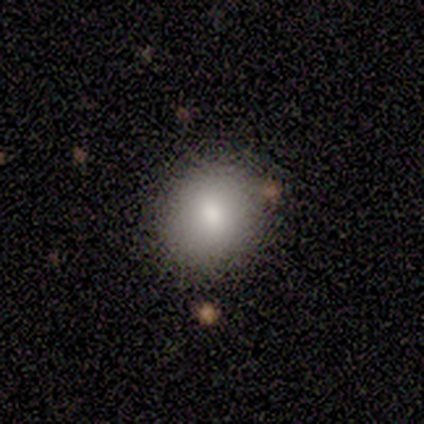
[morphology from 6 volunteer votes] Smooth or featured?
  - smooth: 83% *
  - star or artifact: 17%
  - featured or disk: 0%
How rounded?
  - round: 100% *
  - in between: 0%
  - cigar-shaped: 0%
Merging?
  - none: 100% *
  - minor disturbance: 0%
  - major disturbance: 0%
  - merger: 0%